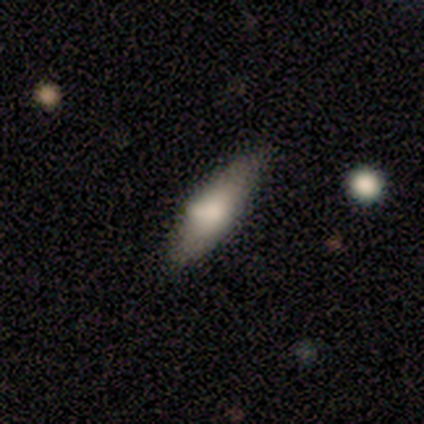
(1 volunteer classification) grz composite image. It shows a smooth galaxy with no disk features (100%) that is cigar-shaped (100%). Merging: minor disturbance (100%).